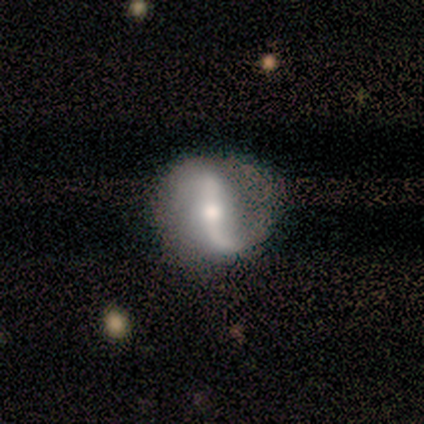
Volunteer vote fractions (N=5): smooth_or_featured: featured or disk (p=1.00)
disk_edge_on: no (p=0.80) [alt: yes p=0.20]
bar: strong (p=0.75) [alt: weak p=0.25]
has_spiral_arms: yes (p=1.00)
spiral_winding: loose (p=0.75) [alt: medium p=0.25]
spiral_arm_count: 2 (p=1.00)
bulge_size: moderate (p=0.75) [alt: large p=0.25]
merging: none (p=0.80) [alt: major disturbance p=0.20]